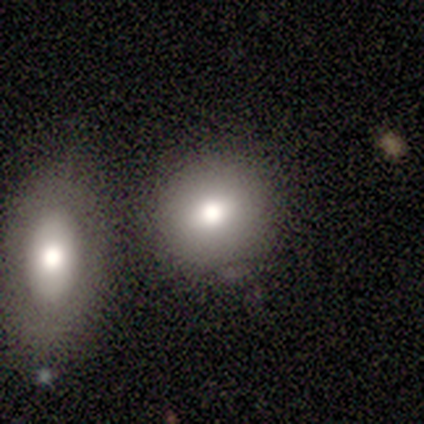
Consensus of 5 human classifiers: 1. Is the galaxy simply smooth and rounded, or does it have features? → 80% smooth, 20% star or artifact, 0% featured or disk.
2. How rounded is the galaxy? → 75% round, 25% in between, 0% cigar-shaped.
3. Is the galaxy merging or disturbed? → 50% none, 25% minor disturbance, 25% merger, 0% major disturbance.